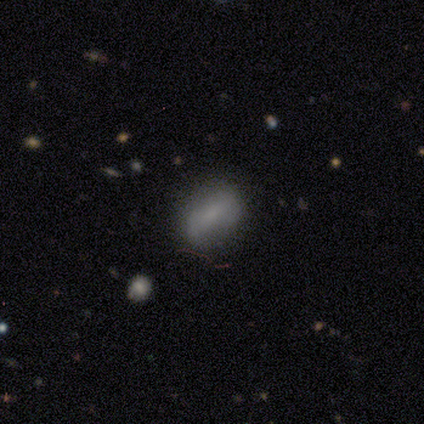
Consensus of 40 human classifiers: This is likely a smooth galaxy (78%). How rounded: clearly in between (90%). Merging: likely none (68%).